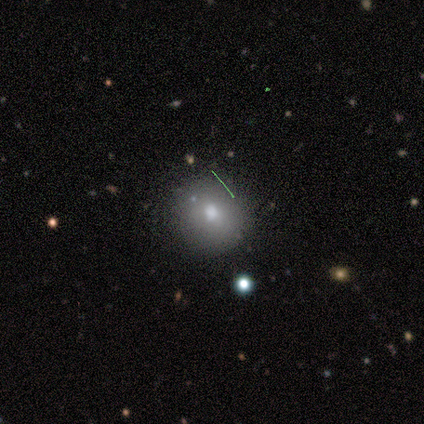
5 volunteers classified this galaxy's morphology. Smooth or featured?
  - smooth: 80% *
  - featured or disk: 20%
  - star or artifact: 0%
How rounded?
  - round: 100% *
  - in between: 0%
  - cigar-shaped: 0%
Merging?
  - none: 80% *
  - merger: 20%
  - minor disturbance: 0%
  - major disturbance: 0%